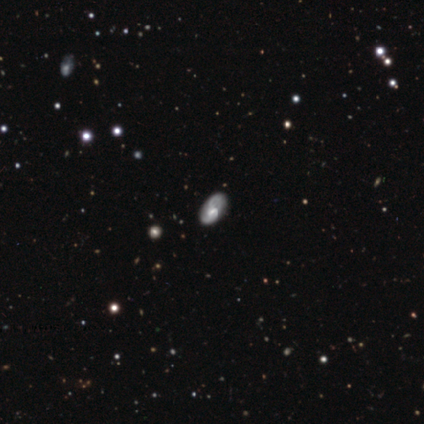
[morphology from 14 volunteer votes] This appears to be a featured or disk galaxy (64%) with a strong bar (67%), 2 (50%) loose (50%) spiral arms (89%) and no central bulge (67%). Merging: none (83%).